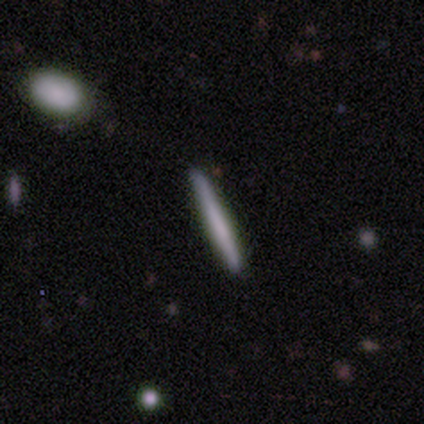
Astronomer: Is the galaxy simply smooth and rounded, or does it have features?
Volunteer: smooth — 60% (runner-up: featured or disk, 40%).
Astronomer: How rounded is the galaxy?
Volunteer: cigar-shaped — 100%.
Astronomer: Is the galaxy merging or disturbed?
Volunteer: none — 80%.